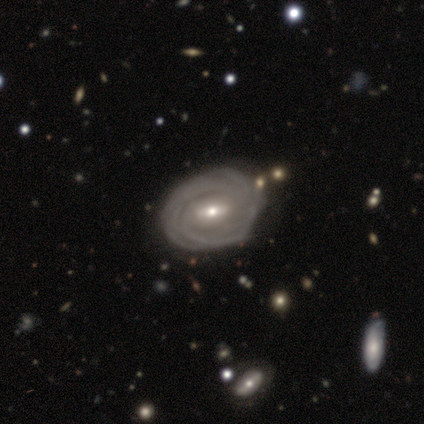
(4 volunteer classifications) Smooth or featured?
  - featured or disk: 100% *
  - smooth: 0%
  - star or artifact: 0%
Edge-on disk?
  - no: 100% *
  - yes: 0%
Bar?
  - strong: 75% *
  - weak: 25%
  - no: 0%
Spiral arms?
  - yes: 100% *
  - no: 0%
Spiral winding?
  - tight: 100% *
  - medium: 0%
  - loose: 0%
Spiral arm count?
  - more than 4: 50% *
  - 3: 25%
  - can't tell: 25%
  - 1: 0%
  - 2: 0%
  - 4: 0%
Bulge size?
  - moderate: 75% *
  - small: 25%
  - dominant: 0%
  - large: 0%
  - none: 0%
Merging?
  - none: 75% *
  - major disturbance: 25%
  - minor disturbance: 0%
  - merger: 0%